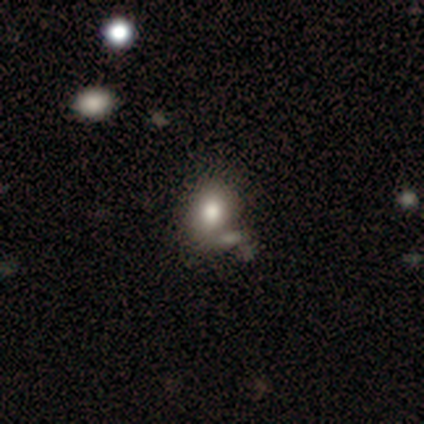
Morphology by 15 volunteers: A smooth galaxy with no disk features (93%) that is in between round and cigar-shaped (71%). Merging: merger (43%).